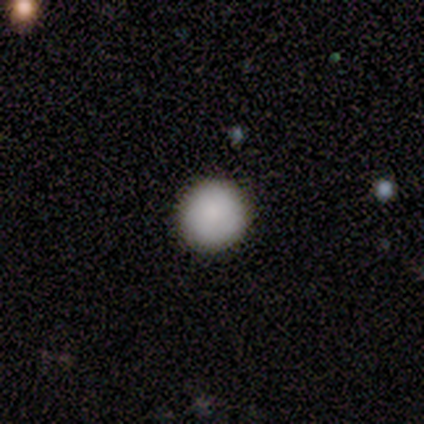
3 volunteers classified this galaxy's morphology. type=smooth (100%); roundness=round (100%); merging=none (100%).